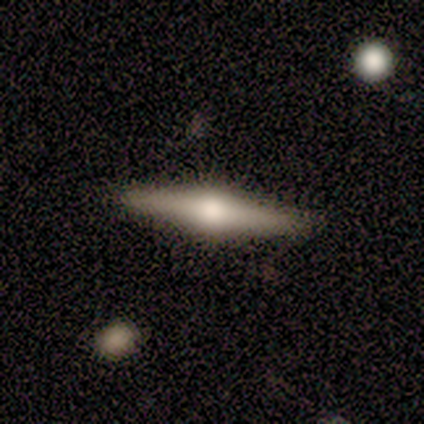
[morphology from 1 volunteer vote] Smooth or featured?
  - featured or disk: 100% *
  - smooth: 0%
  - star or artifact: 0%
Edge-on disk?
  - yes: 100% *
  - no: 0%
Edge-on bulge?
  - rounded: 100% *
  - boxy: 0%
  - none: 0%
Merging?
  - none: 100% *
  - minor disturbance: 0%
  - major disturbance: 0%
  - merger: 0%